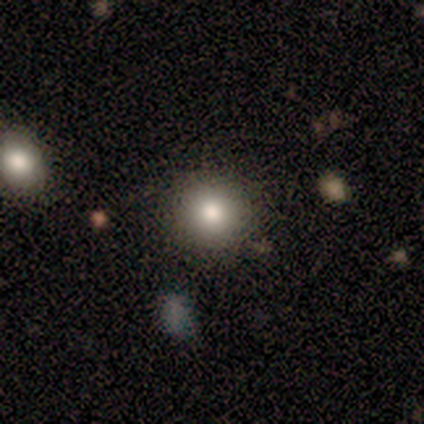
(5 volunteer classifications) Volunteers were most divided on "merging": none: 75%, minor disturbance: 25%, major disturbance: 0%, merger: 0%. More confident: how rounded — round (100%); smooth or featured — smooth (80%).